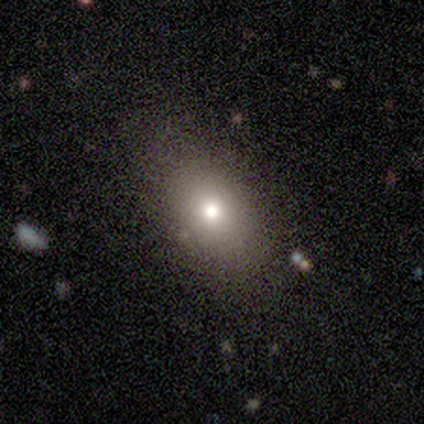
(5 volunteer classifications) Smooth or featured? 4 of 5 (80%) said smooth. How rounded? 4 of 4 (100%) said in between. Merging? 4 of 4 (100%) said none.